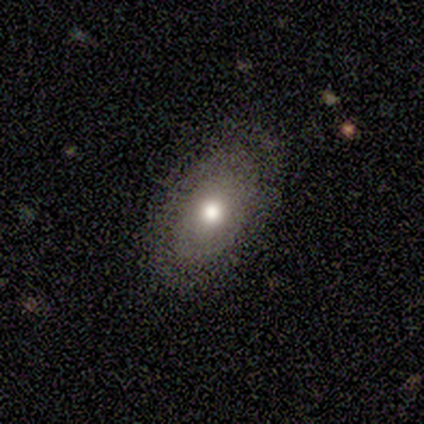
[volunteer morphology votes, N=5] smooth-or-featured: smooth: 60% | featured or disk: 40% | star or artifact: 0%
  how-rounded: in between: 100% | round: 0% | cigar-shaped: 0%
  merging: none: 80% | major disturbance: 20% | minor disturbance: 0% | merger: 0%